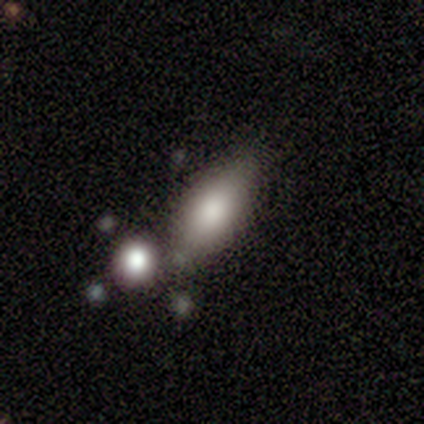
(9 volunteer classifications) Smooth or featured? 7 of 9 (78%) said smooth. How rounded? 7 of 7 (100%) said in between. Merging? 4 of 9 (44%, tied with minor disturbance) said none.